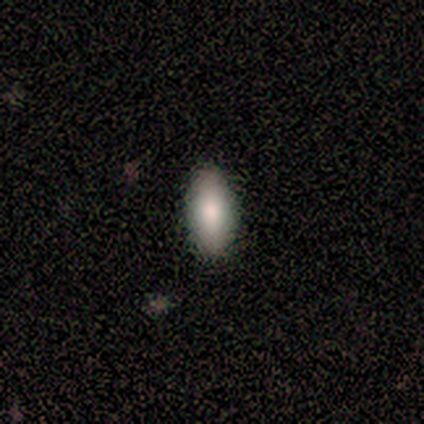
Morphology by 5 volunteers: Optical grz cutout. It shows a smooth galaxy with no disk features (80%) that is in between round and cigar-shaped (100%). Merging: none (100%).